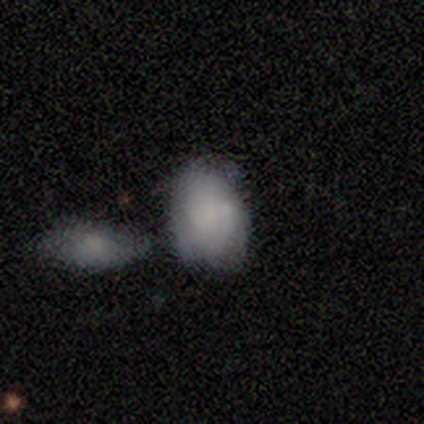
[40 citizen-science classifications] Smooth or featured: smooth — 80% (featured or disk — 20%)
How rounded: in between — 66% (round — 34%)
Merging: none — 45% (merger — 35%)